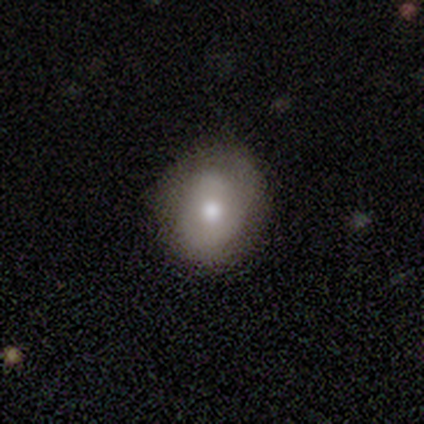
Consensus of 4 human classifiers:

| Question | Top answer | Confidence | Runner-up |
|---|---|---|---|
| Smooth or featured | featured or disk | 75% | smooth (25%) |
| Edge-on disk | no | 100% | — |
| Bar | no | 100% | — |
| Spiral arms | no | 100% | — |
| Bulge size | moderate | 67% | small (33%) |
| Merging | none | 75% | minor disturbance (25%) |